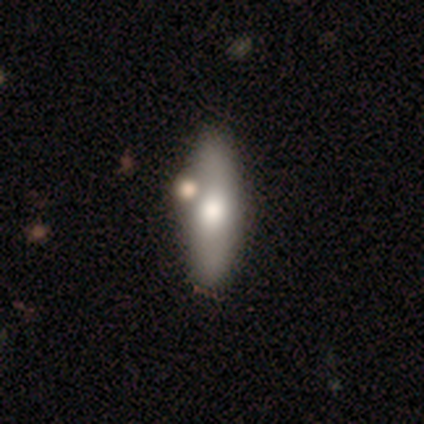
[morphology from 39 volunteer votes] A smooth galaxy with no disk features (79%) that is in between round and cigar-shaped (65%). Merging: none (53%).